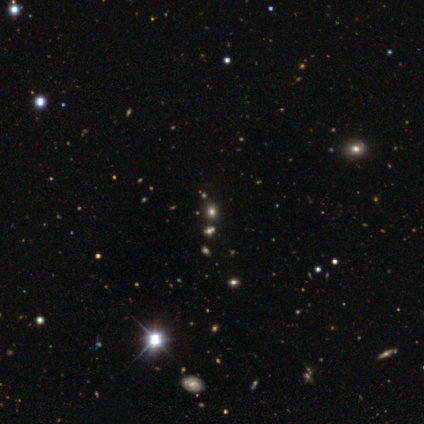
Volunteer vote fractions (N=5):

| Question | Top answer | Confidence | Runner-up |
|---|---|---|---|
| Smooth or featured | star or artifact | 60% | smooth (40%) |